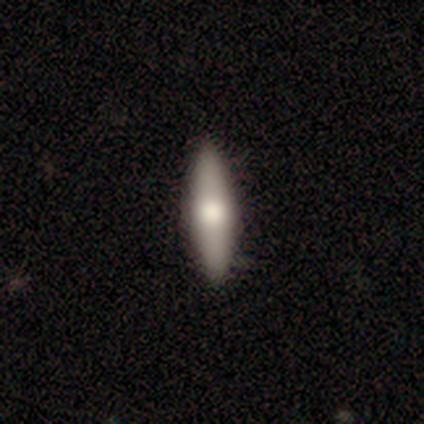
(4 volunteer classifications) Smooth or featured?
  - smooth: 50% * (tied)
  - featured or disk: 50% * (tied)
  - star or artifact: 0%
How rounded?
  - in between: 50% * (tied)
  - cigar-shaped: 50% * (tied)
  - round: 0%
Merging?
  - none: 75% *
  - major disturbance: 25%
  - minor disturbance: 0%
  - merger: 0%